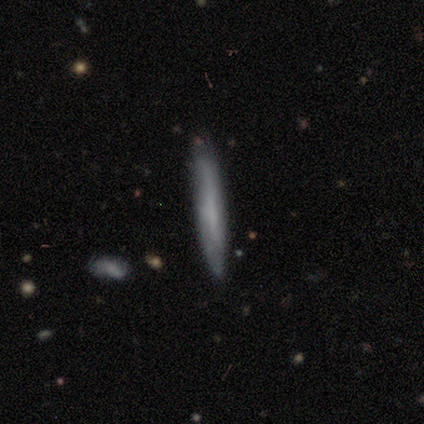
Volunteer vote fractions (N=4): smooth-or-featured: smooth: 100% | featured or disk: 0% | star or artifact: 0%
  how-rounded: cigar-shaped: 100% | round: 0% | in between: 0%
  merging: none: 100% | minor disturbance: 0% | major disturbance: 0% | merger: 0%